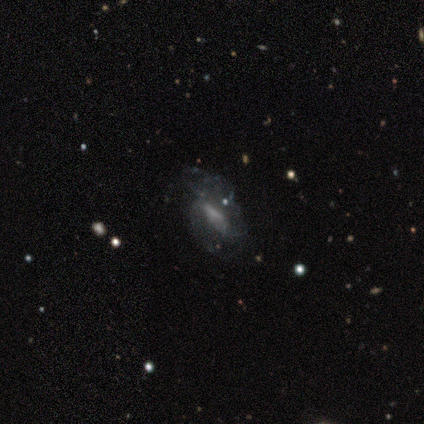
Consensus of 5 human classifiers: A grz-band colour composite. It shows a featured or disk galaxy (60%) with a weak bar (67%), no spiral arms (67%) and no central bulge (67%). Merging: major disturbance (75%).